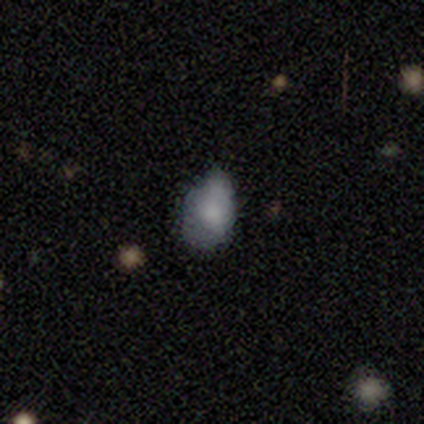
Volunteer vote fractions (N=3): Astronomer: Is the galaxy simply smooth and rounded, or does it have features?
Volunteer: smooth — 100%.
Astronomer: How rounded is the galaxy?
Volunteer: in between — 67%.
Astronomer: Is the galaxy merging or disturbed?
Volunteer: minor disturbance — 100%.